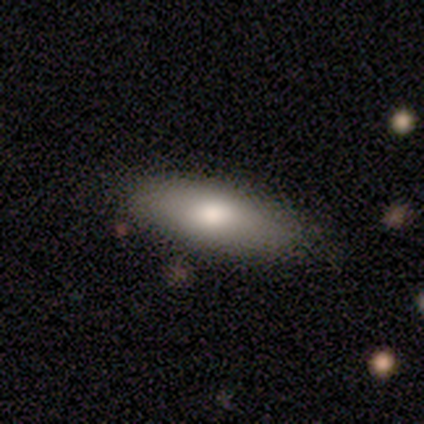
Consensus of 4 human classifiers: Smooth or featured: smooth — 75% (featured or disk — 25%)
How rounded: in between — 100%
Merging: none — 75% (minor disturbance — 25%)